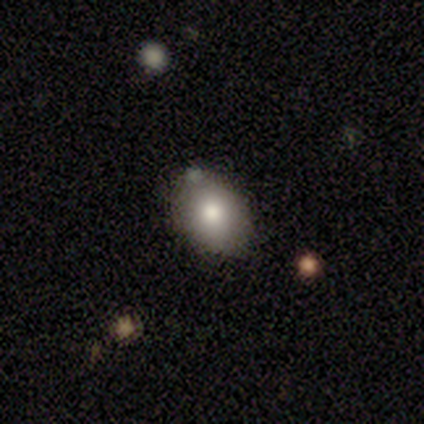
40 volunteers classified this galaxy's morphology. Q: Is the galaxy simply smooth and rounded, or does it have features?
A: smooth — 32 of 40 (80%).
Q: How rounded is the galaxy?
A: in between — 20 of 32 (62%).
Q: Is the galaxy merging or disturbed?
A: none — 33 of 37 (89%).